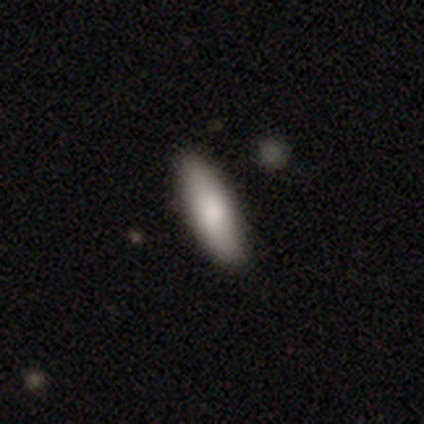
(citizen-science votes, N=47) This appears to be a smooth galaxy with no disk features (96%) that is in between round and cigar-shaped (51%). Merging: none (94%).